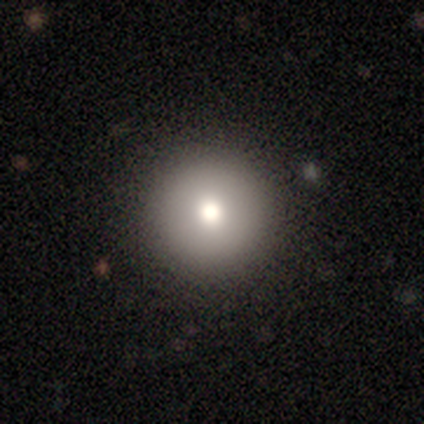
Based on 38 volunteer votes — Smooth or featured? smooth (82%)
How rounded? round (100%)
Merging? none (100%)